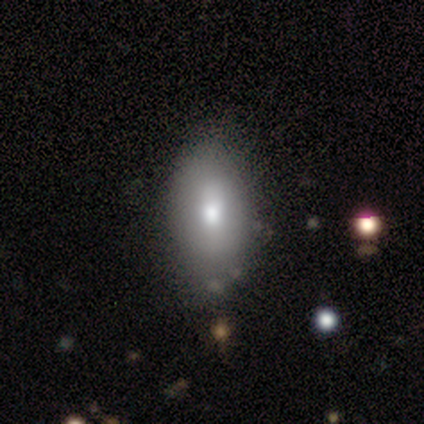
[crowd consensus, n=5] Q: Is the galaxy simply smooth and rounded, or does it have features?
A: smooth — 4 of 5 (80%).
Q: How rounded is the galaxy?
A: in between — 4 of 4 (100%).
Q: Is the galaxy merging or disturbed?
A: none — 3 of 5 (60%).